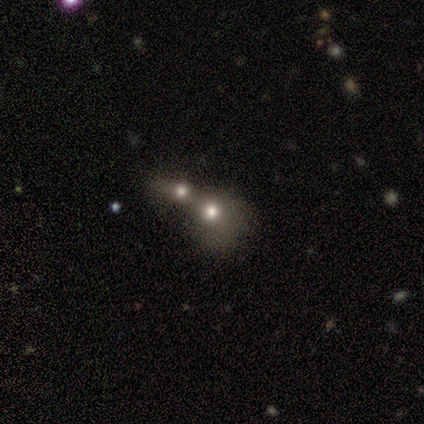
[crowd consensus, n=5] Smooth or featured: smooth — 60% (featured or disk — 40%)
How rounded: round — 67% (in between — 33%)
Merging: merger — 100%